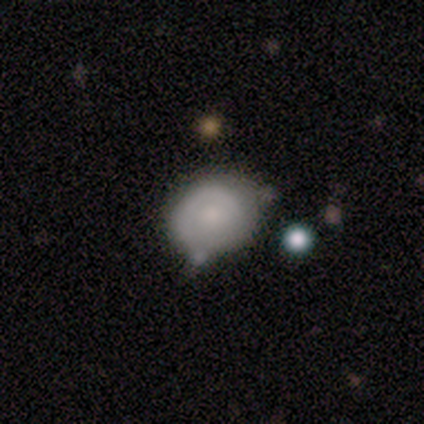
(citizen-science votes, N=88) smooth-or-featured: smooth: 57% | featured or disk: 32% | star or artifact: 11%
  how-rounded: round: 58% | in between: 40% | cigar-shaped: 2%
  merging: none: 58% | minor disturbance: 29% | merger: 9% | major disturbance: 4%